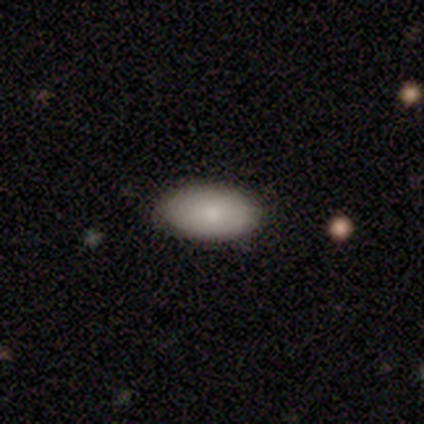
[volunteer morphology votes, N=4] Smooth or featured: smooth — 100%
How rounded: in between — 100%
Merging: none — 100%